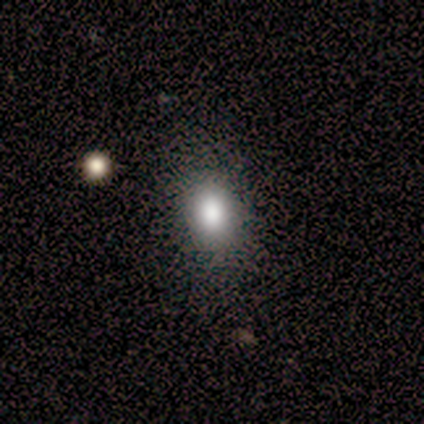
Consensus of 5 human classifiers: smooth_or_featured: smooth (p=0.80) [alt: star or artifact p=0.20]
how_rounded: in between (p=0.75) [alt: round p=0.25]
merging: none (p=0.75) [alt: minor disturbance p=0.25]